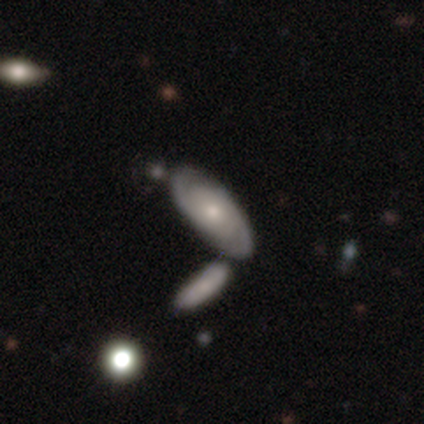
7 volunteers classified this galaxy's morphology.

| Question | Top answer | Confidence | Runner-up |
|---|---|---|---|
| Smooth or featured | featured or disk | 86% | smooth (14%) |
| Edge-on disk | no | 83% | yes (17%) |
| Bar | no | 100% | — |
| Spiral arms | yes | 100% | — |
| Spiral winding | tight | 60% | medium (40%) |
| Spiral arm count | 2 | 80% | can't tell (20%) |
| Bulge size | moderate | 60% | small (40%) |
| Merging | none | 100% | — |